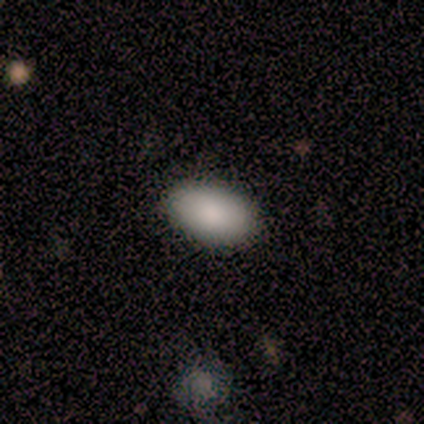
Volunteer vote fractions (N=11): smooth 73%, star or artifact 18%, featured or disk 9%. Down the decision tree: how rounded — in between (88%); merging — none (89%).